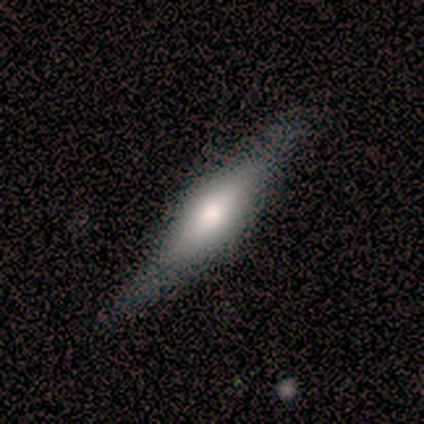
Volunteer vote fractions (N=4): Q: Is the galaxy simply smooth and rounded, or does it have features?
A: smooth — 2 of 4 (50%).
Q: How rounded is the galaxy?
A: cigar-shaped — 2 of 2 (100%).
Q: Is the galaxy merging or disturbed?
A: none — 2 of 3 (67%).